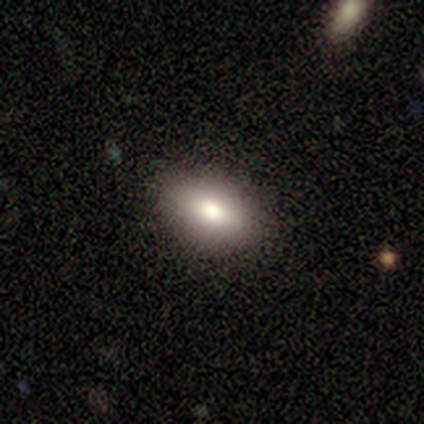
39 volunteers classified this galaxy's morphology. Volunteers were most divided on "how rounded": in between: 86%, round: 11%, cigar-shaped: 3%. More confident: merging — none (92%); smooth or featured — smooth (90%).